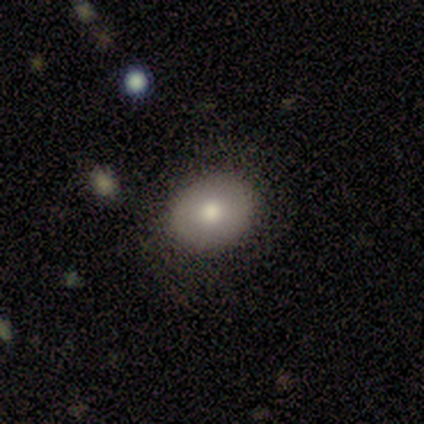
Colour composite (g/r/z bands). It shows a smooth galaxy with no disk features (100%) that is round (100%). Merging: none (100%).